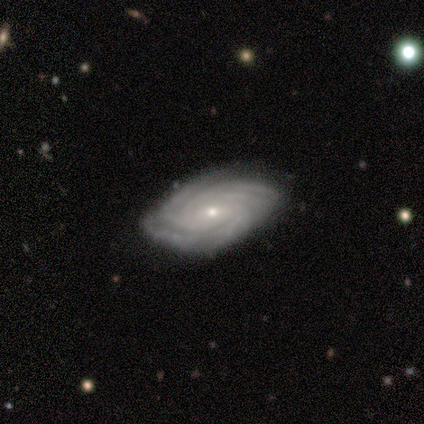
Smooth or featured?
  - featured or disk: 100% *
  - smooth: 0%
  - star or artifact: 0%
Edge-on disk?
  - no: 100% *
  - yes: 0%
Bar?
  - weak: 50% * (tied)
  - no: 50% * (tied)
  - strong: 0%
Spiral arms?
  - yes: 100% *
  - no: 0%
Spiral winding?
  - tight: 50% *
  - medium: 25%
  - loose: 25%
Spiral arm count?
  - 3: 50% *
  - more than 4: 25%
  - can't tell: 25%
  - 1: 0%
  - 2: 0%
  - 4: 0%
Bulge size?
  - moderate: 75% *
  - small: 25%
  - dominant: 0%
  - large: 0%
  - none: 0%
Merging?
  - none: 75% *
  - minor disturbance: 25%
  - major disturbance: 0%
  - merger: 0%